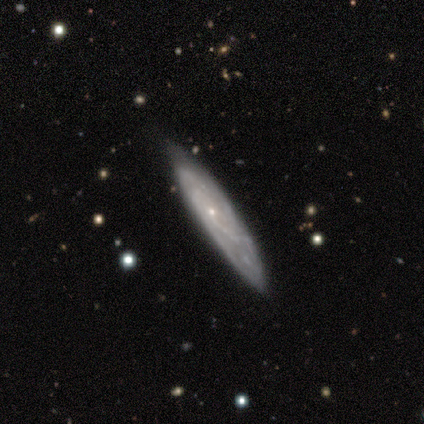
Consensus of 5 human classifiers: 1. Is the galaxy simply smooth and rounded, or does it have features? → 60% featured or disk, 40% smooth, 0% star or artifact.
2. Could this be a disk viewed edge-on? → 100% yes, 0% no.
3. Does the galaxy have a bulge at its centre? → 67% none, 33% rounded, 0% boxy.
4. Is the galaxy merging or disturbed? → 100% none, 0% minor disturbance, 0% major disturbance, 0% merger.